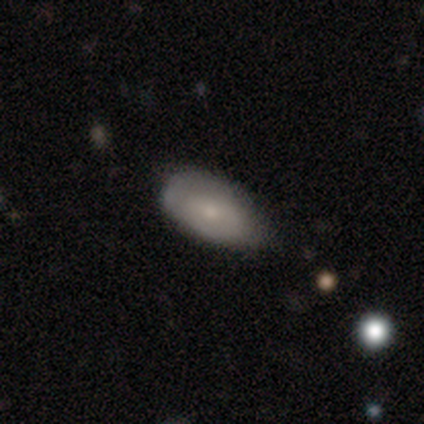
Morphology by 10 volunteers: smooth-or-featured: smooth: 60% | featured or disk: 40% | star or artifact: 0%
  how-rounded: in between: 83% | cigar-shaped: 17% | round: 0%
  merging: none: 60% | minor disturbance: 30% | merger: 10% | major disturbance: 0%